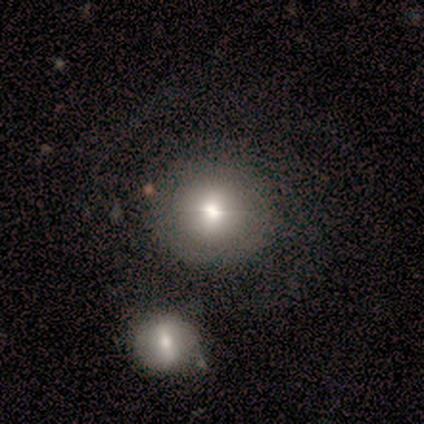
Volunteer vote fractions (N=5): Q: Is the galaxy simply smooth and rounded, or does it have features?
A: star or artifact — 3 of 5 (60%).